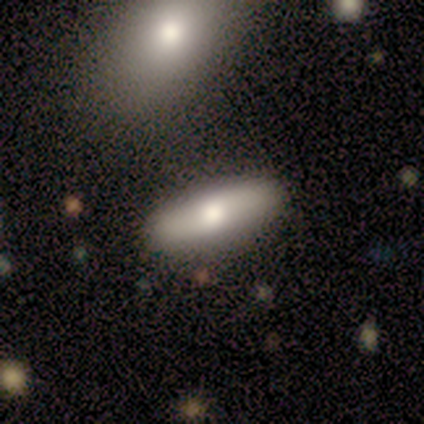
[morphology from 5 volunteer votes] Smooth or featured? 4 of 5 (80%) said smooth. How rounded? 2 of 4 (50%, tied with cigar-shaped) said in between. Merging? 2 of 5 (40%, tied with minor disturbance) said none.